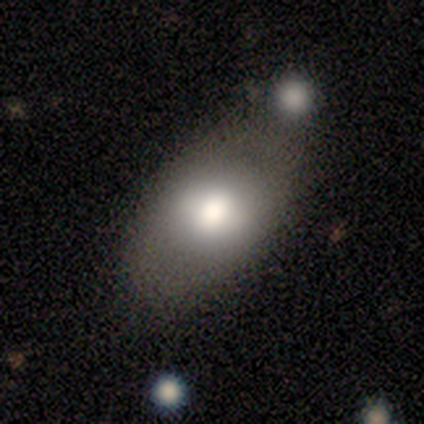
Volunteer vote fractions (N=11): Smooth or featured?
  - smooth: 100% *
  - featured or disk: 0%
  - star or artifact: 0%
How rounded?
  - in between: 91% *
  - round: 9%
  - cigar-shaped: 0%
Merging?
  - none: 55% *
  - merger: 36%
  - minor disturbance: 9%
  - major disturbance: 0%